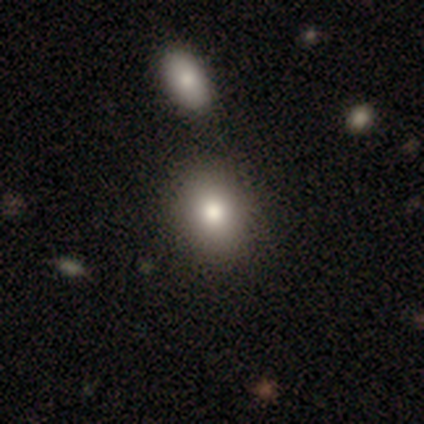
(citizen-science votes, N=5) Smooth or featured: smooth — 60% (featured or disk — 20%)
How rounded: round — 67% (in between — 33%)
Merging: none — 100%